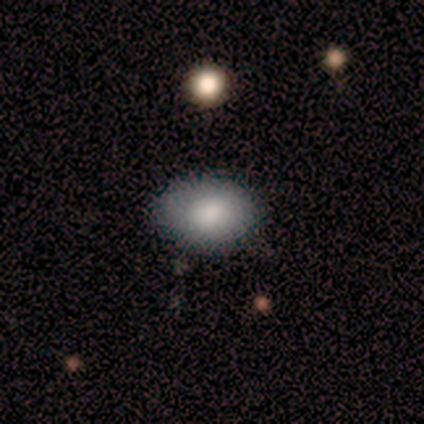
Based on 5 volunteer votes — Smooth or featured? 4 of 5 (80%) said smooth. How rounded? 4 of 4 (100%) said in between. Merging? 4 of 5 (80%) said none.